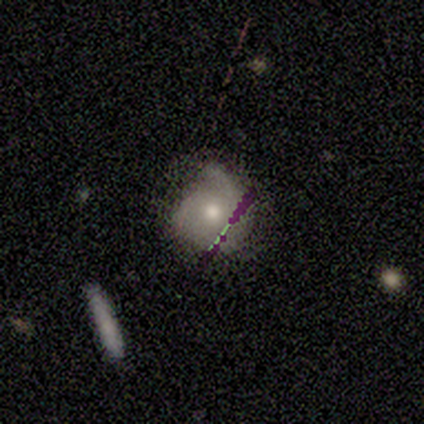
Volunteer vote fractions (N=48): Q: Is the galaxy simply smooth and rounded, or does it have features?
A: featured or disk — 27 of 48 (56%).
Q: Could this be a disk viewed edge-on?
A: no — 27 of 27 (100%).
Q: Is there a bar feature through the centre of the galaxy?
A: no — 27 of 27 (100%).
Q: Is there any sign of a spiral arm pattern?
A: yes — 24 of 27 (89%).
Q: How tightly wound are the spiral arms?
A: tight — 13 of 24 (54%).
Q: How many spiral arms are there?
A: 1 — 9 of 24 (38%).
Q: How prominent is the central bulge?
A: moderate — 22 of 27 (81%).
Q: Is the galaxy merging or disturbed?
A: none — 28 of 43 (65%).